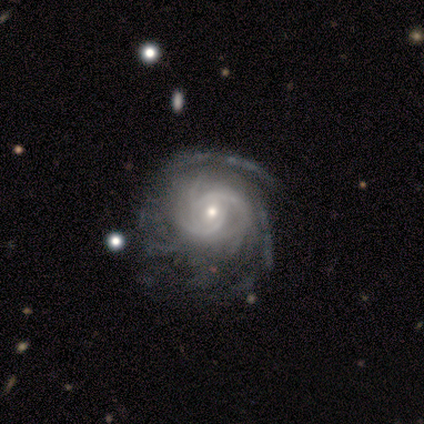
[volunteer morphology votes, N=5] Smooth or featured?
  - featured or disk: 80% *
  - star or artifact: 20%
  - smooth: 0%
Edge-on disk?
  - no: 75% *
  - yes: 25%
Bar?
  - no: 67% *
  - weak: 33%
  - strong: 0%
Spiral arms?
  - yes: 100% *
  - no: 0%
Spiral winding?
  - tight: 67% *
  - medium: 33%
  - loose: 0%
Spiral arm count?
  - can't tell: 67% *
  - 3: 33%
  - 1: 0%
  - 2: 0%
  - 4: 0%
  - more than 4: 0%
Bulge size?
  - small: 67% *
  - moderate: 33%
  - dominant: 0%
  - large: 0%
  - none: 0%
Merging?
  - none: 75% *
  - minor disturbance: 25%
  - major disturbance: 0%
  - merger: 0%